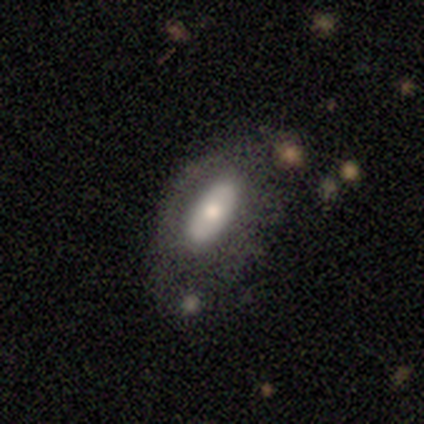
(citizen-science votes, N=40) Overall: smooth (55%; featured or disk 40%). How rounded: in between (91%). Merging: none (55%; minor disturbance 24%).